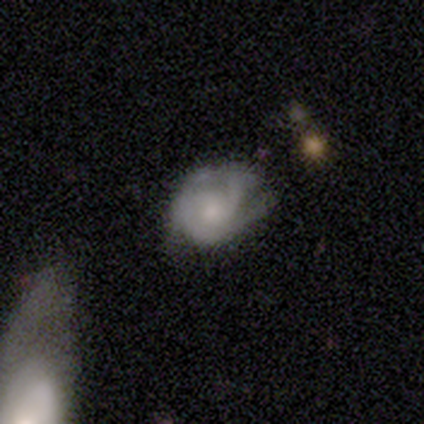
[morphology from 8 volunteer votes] smooth_or_featured: featured or disk (p=1.00)
disk_edge_on: no (p=1.00)
bar: no (p=0.88) [alt: weak p=0.12]
has_spiral_arms: yes (p=0.88) [alt: no p=0.12]
spiral_winding: medium (p=0.86) [alt: tight p=0.14]
spiral_arm_count: can't tell (p=0.43) [alt: 2 p=0.29]
bulge_size: small (p=0.75) [alt: large p=0.12]
merging: minor disturbance (p=0.50) [alt: major disturbance p=0.38]